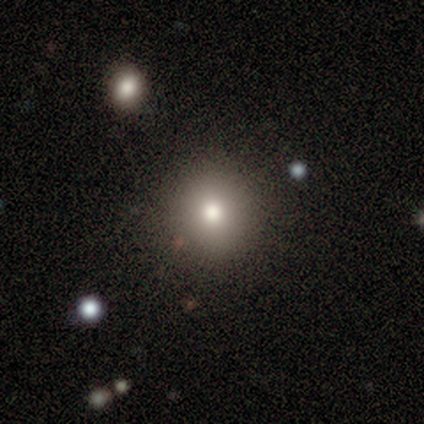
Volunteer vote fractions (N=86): Overall: smooth (71%). How rounded: round (93%). Merging: none (90%).